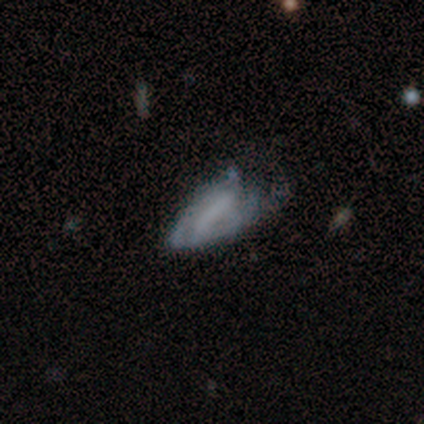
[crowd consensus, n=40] smooth_or_featured: featured or disk (p=0.53) [alt: smooth p=0.45]
disk_edge_on: no (p=0.95) [alt: yes p=0.05]
bar: no (p=0.55) [alt: strong p=0.30]
has_spiral_arms: no (p=0.75) [alt: yes p=0.25]
bulge_size: none (p=0.95) [alt: large p=0.05]
merging: major disturbance (p=0.44) [alt: minor disturbance p=0.31]